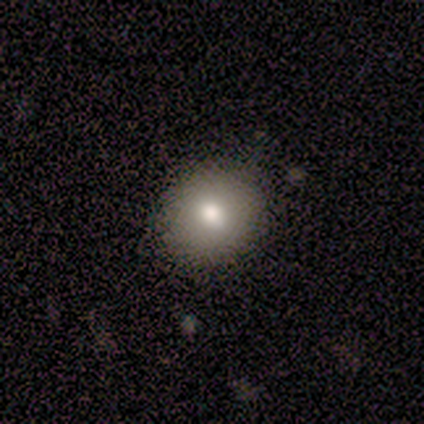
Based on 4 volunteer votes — Q: Smooth or featured?
A: smooth (100%)
Q: How rounded?
A: round (75%); runner-up: in between (25%)
Q: Merging?
A: none (75%); runner-up: minor disturbance (25%)